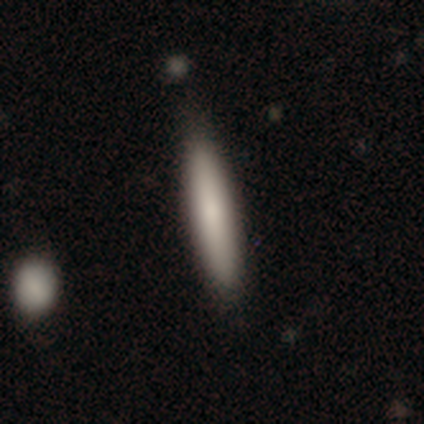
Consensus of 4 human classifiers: Overall: smooth (75%). How rounded: cigar-shaped (100%). Merging: none (100%).